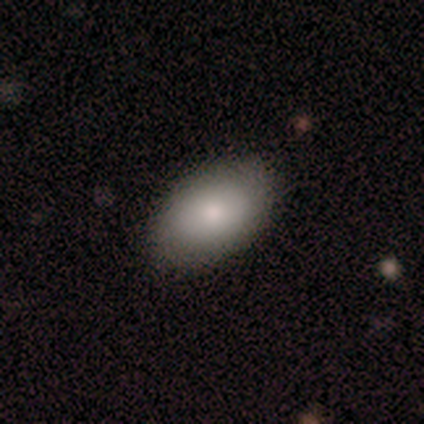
Smooth or featured? smooth (86%)
How rounded? in between (100%)
Merging? none (83%)